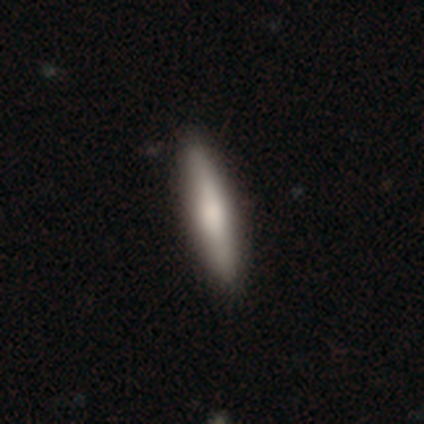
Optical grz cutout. It shows a smooth galaxy with no disk features (72%) that is cigar-shaped (88%). Merging: none (83%).